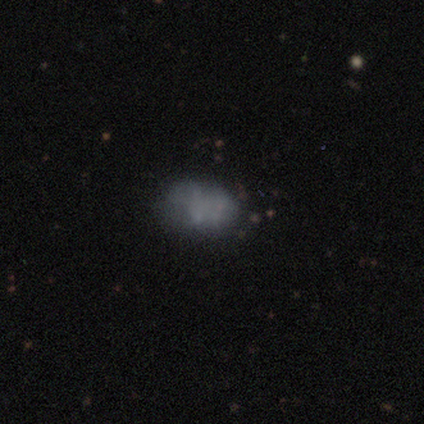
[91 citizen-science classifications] A smooth galaxy with no disk features (49%) that is in between round and cigar-shaped (80%). Merging: none (57%).